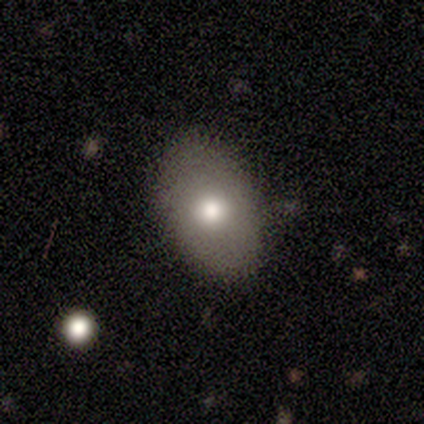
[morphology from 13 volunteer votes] Smooth or featured? 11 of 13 (85%) said smooth. How rounded? 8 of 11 (73%) said in between. Merging? 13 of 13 (100%) said none.